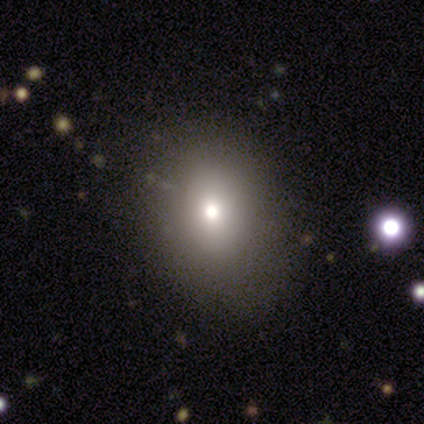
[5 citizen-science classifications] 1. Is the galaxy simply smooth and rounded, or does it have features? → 100% smooth, 0% featured or disk, 0% star or artifact.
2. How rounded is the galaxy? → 100% in between, 0% round, 0% cigar-shaped.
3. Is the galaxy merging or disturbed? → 80% none, 20% minor disturbance, 0% major disturbance, 0% merger.